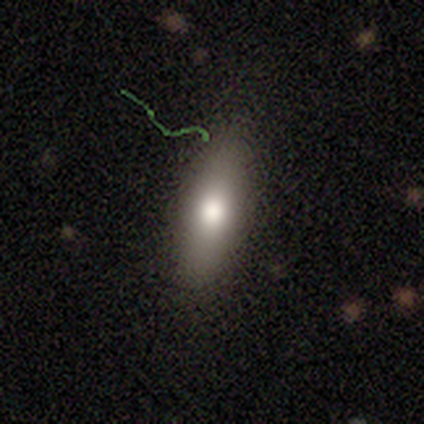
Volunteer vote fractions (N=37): This appears to be a smooth galaxy with no disk features (78%) that is in between round and cigar-shaped (76%). Merging: none (79%).